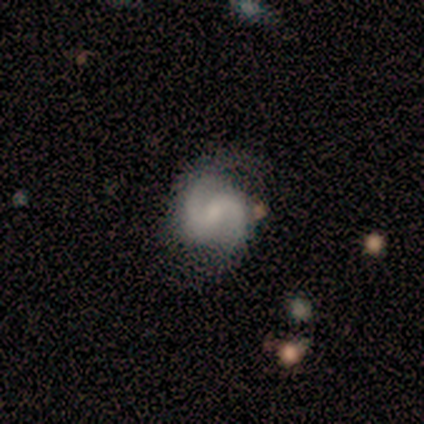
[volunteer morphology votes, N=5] smooth-or-featured: featured or disk: 100% | smooth: 0% | star or artifact: 0%
  disk-edge-on: no: 100% | yes: 0%
    bar: no: 60% | weak: 40% | strong: 0%
    has-spiral-arms: yes: 100% | no: 0%
      spiral-winding: medium: 40% (tied) | loose: 40% (tied) | tight: 20%
      spiral-arm-count: 2: 100% | 1: 0% | 3: 0% | 4: 0% | more than 4: 0% | can't tell: 0%
    bulge-size: none: 60% | moderate: 20% | small: 20% | dominant: 0% | large: 0%
  merging: none: 100% | minor disturbance: 0% | major disturbance: 0% | merger: 0%